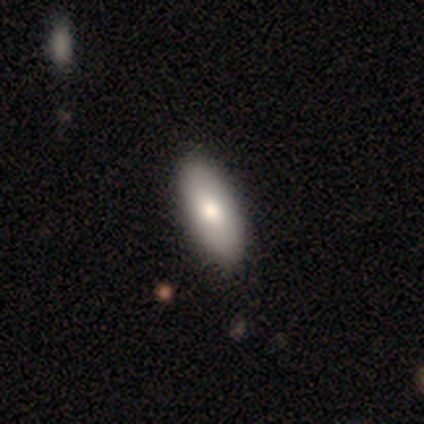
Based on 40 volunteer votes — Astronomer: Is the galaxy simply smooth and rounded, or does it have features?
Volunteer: smooth — 70%.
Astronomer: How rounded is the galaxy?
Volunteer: in between — 89%.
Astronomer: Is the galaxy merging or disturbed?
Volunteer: none — 67%.